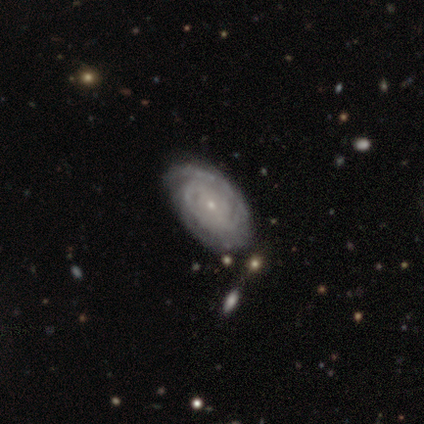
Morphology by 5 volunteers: This is clearly a featured or disk galaxy (80%). It is clearly not viewed edge-on (100%). Bar: possibly weak (50%, tied with no). Spiral arm pattern: likely yes (75%). Spiral arm count: likely can't tell (67%). Spiral winding: likely medium (67%). Central bulge: likely small (75%). Merging: possibly none (50%, tied with minor disturbance).